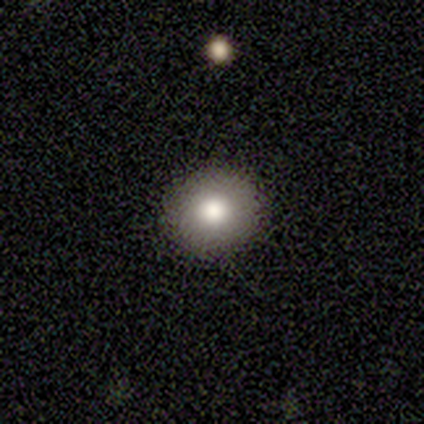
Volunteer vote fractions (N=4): Morphology: type=smooth (100%); roundness=round (75%); merging=none (100%).